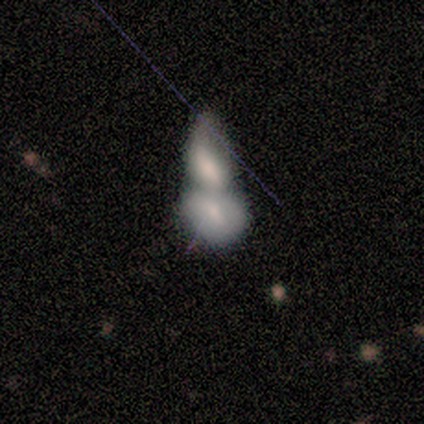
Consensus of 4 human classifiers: smooth-or-featured: smooth: 50% | featured or disk: 25% | star or artifact: 25%
  how-rounded: in between: 100% | round: 0% | cigar-shaped: 0%
  merging: merger: 67% | major disturbance: 33% | none: 0% | minor disturbance: 0%